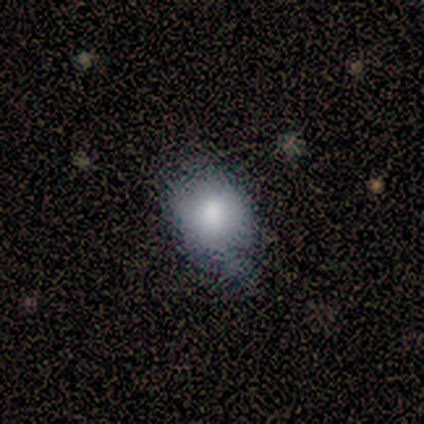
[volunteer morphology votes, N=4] smooth_or_featured: smooth (p=0.75) [alt: featured or disk p=0.25]
how_rounded: round (p=0.67) [alt: in between p=0.33]
merging: none (p=0.75) [alt: minor disturbance p=0.25]